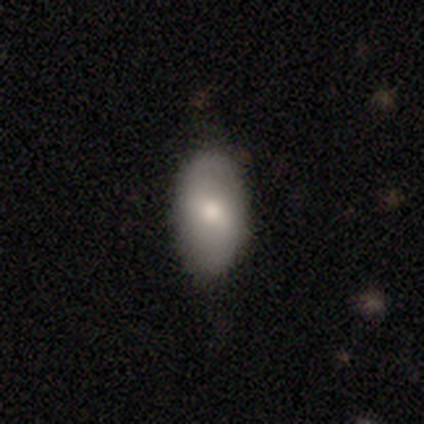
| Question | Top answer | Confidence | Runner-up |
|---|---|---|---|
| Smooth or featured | smooth | 65% | featured or disk (35%) |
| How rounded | in between | 91% | round (9%) |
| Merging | none | 73% | minor disturbance (25%) |